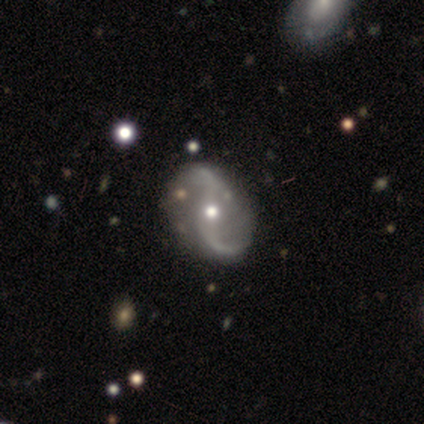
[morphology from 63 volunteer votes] This appears to be a featured or disk galaxy (89%) with no bar (50%), 2 (96%) loose (88%) spiral arms (96%) and a moderate central bulge (74%). Merging: none (76%).